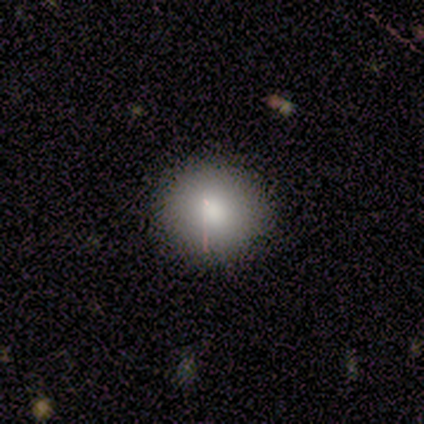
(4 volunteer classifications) smooth-or-featured: smooth: 100% | featured or disk: 0% | star or artifact: 0%
  how-rounded: round: 100% | in between: 0% | cigar-shaped: 0%
  merging: none: 100% | minor disturbance: 0% | major disturbance: 0% | merger: 0%